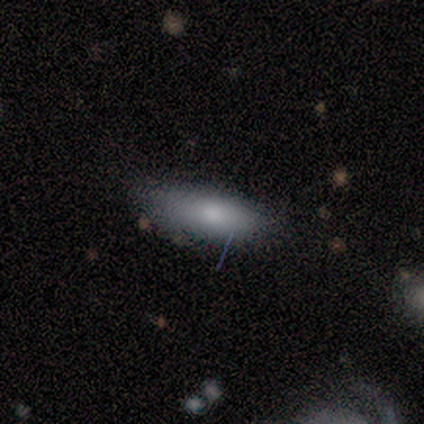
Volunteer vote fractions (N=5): A featured or disk galaxy (60%) with no bar (67%), no spiral arms (100%) and a moderate central bulge (67%). Merging: none (60%).